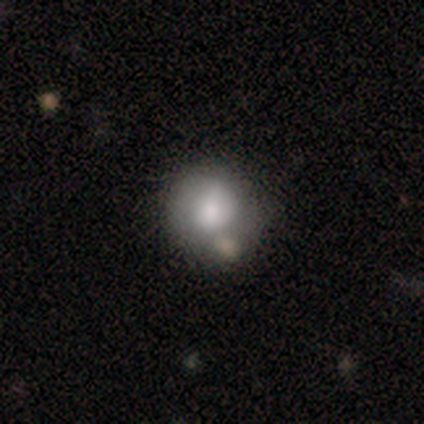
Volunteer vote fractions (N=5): Q: Smooth or featured?
A: smooth (80%); runner-up: featured or disk (20%)
Q: How rounded?
A: round (75%); runner-up: in between (25%)
Q: Merging?
A: none (60%); runner-up: minor disturbance (20%)